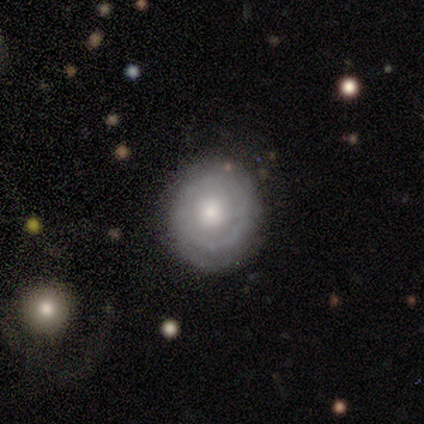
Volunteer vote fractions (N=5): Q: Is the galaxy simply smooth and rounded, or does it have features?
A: featured or disk — 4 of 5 (80%).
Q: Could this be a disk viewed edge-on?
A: no — 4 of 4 (100%).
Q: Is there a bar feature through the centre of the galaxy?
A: no — 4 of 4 (100%).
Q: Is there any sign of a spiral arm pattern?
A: yes — 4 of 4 (100%).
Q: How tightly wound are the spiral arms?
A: tight — 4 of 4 (100%).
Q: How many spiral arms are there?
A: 1 — 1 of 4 (25%, tied with 2, more than 4 and can't tell).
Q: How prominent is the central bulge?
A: moderate — 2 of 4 (50%, tied with small).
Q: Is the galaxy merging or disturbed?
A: none — 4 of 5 (80%).